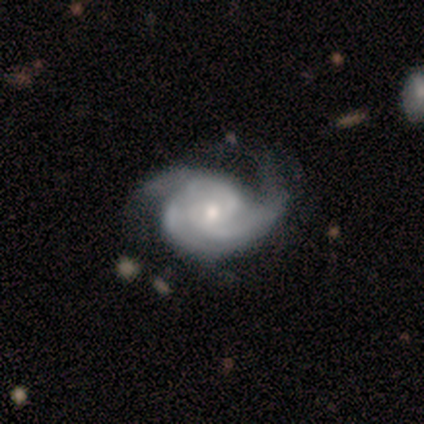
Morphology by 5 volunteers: Q: Smooth or featured?
A: featured or disk (80%); runner-up: smooth (20%)
Q: Edge-on disk?
A: no (100%)
Q: Bar?
A: no (100%)
Q: Spiral arms?
A: yes (100%)
Q: Spiral winding?
A: tight (50%); runner-up: medium (25%)
Q: Spiral arm count?
A: 3 (50%); runner-up: 2 (25%)
Q: Bulge size?
A: moderate (50%); tied with: small (50%)
Q: Merging?
A: none (60%); runner-up: major disturbance (40%)